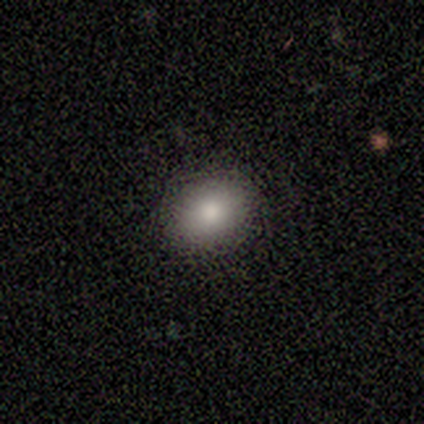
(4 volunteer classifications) Smooth or featured?
  - smooth: 75% *
  - star or artifact: 25%
  - featured or disk: 0%
How rounded?
  - round: 100% *
  - in between: 0%
  - cigar-shaped: 0%
Merging?
  - none: 100% *
  - minor disturbance: 0%
  - major disturbance: 0%
  - merger: 0%